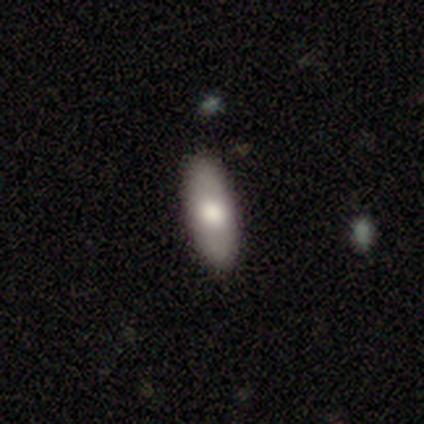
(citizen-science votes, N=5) Morphology: type=smooth (60%); roundness=in between (67%); merging=none (80%).